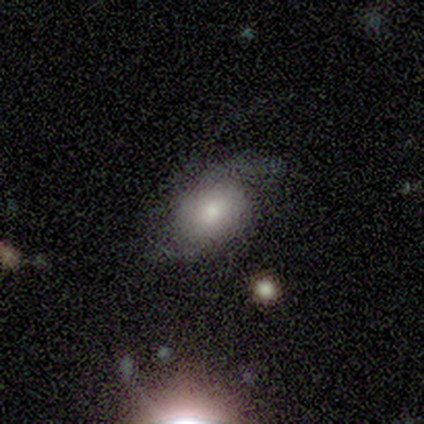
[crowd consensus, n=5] smooth-or-featured: featured or disk: 60% | smooth: 40% | star or artifact: 0%
  disk-edge-on: no: 100% | yes: 0%
    bar: no: 100% | strong: 0% | weak: 0%
    has-spiral-arms: yes: 67% | no: 33%
      spiral-winding: tight: 50% (tied) | loose: 50% (tied) | medium: 0%
      spiral-arm-count: 1: 50% (tied) | 2: 50% (tied) | 3: 0% | 4: 0% | more than 4: 0% | can't tell: 0%
    bulge-size: moderate: 100% | dominant: 0% | large: 0% | small: 0% | none: 0%
  merging: none: 40% (tied) | minor disturbance: 40% (tied) | major disturbance: 20% | merger: 0%